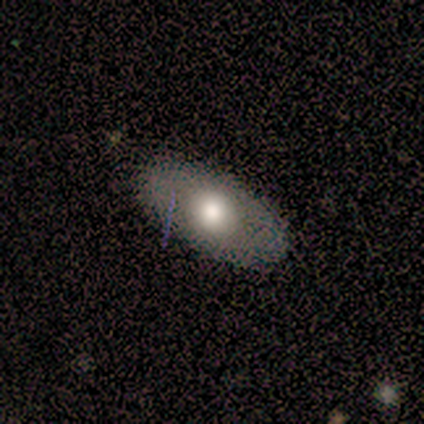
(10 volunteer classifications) Q: Smooth or featured?
A: smooth (60%); runner-up: featured or disk (40%)
Q: How rounded?
A: in between (100%)
Q: Merging?
A: none (80%); runner-up: minor disturbance (20%)